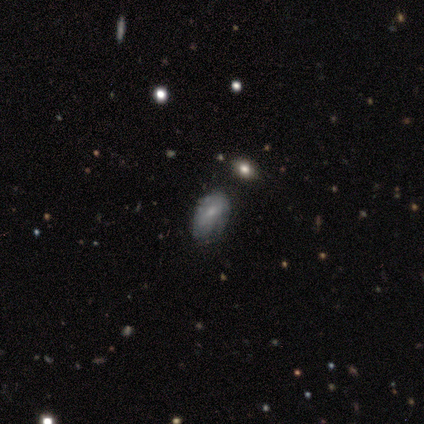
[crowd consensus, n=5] This appears to be a smooth galaxy with no disk features (40%, tied with featured or disk) that is in between round and cigar-shaped (100%). Merging: none (50%, tied with minor disturbance).